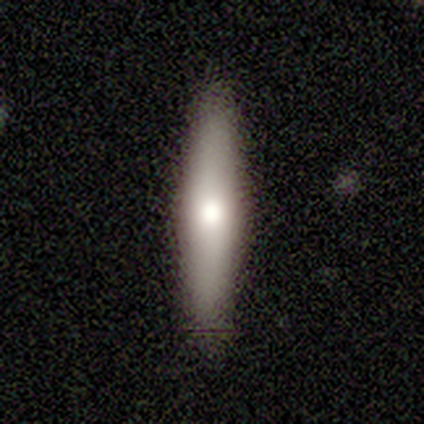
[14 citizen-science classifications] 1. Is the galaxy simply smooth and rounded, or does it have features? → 57% smooth, 29% featured or disk, 14% star or artifact.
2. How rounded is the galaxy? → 88% cigar-shaped, 12% in between, 0% round.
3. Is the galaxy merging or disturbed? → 92% none, 8% major disturbance, 0% minor disturbance, 0% merger.